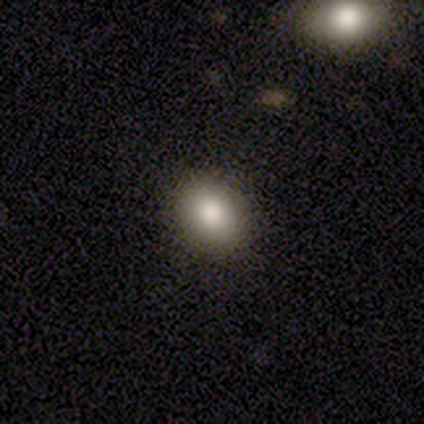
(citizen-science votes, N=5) This appears to be a smooth galaxy with no disk features (80%) that is in between round and cigar-shaped (75%). Merging: none (100%).